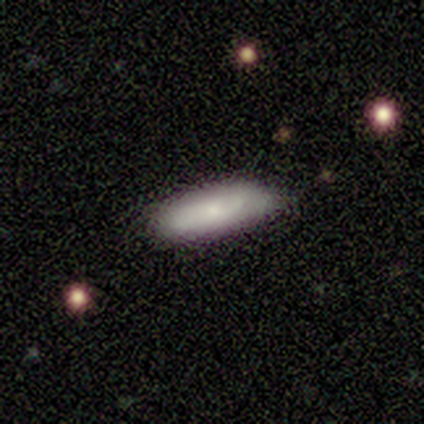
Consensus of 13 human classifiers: Smooth or featured? smooth (62%)
How rounded? in between (75%)
Merging? none (45%, tied with minor disturbance)